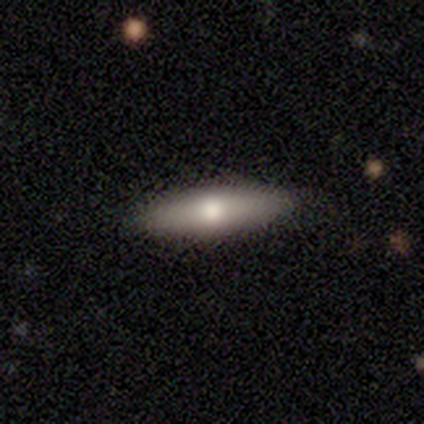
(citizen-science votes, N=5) Smooth or featured? 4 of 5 (80%) said smooth. How rounded? 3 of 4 (75%) said in between. Merging? 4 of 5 (80%) said none.